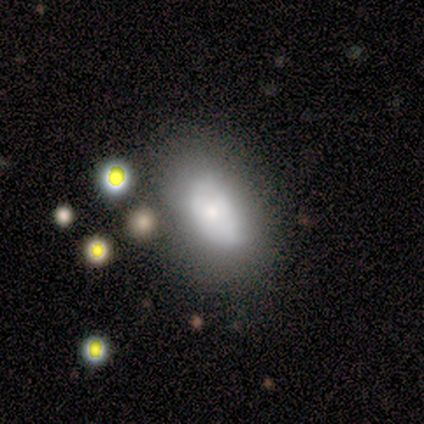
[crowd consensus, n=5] A smooth galaxy with no disk features (60%) that is in between round and cigar-shaped (100%).

Vote fractions:
- Smooth or featured? smooth: 60% / featured or disk: 20% / star or artifact: 20%
- How rounded? in between: 100% / round: 0% / cigar-shaped: 0%
- Merging? none: 75% / minor disturbance: 25% / major disturbance: 0% / merger: 0%